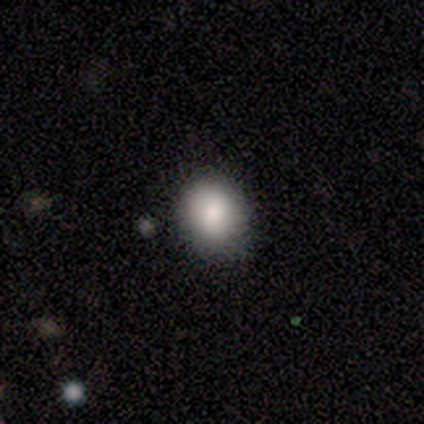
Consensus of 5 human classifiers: smooth_or_featured: smooth (p=0.60) [alt: featured or disk p=0.20]
how_rounded: round (p=0.67) [alt: in between p=0.33]
merging: none (p=1.00)